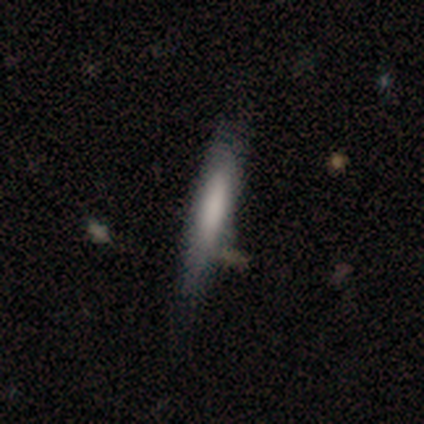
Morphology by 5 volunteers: Smooth or featured: smooth — 80% (featured or disk — 20%)
How rounded: cigar-shaped — 75% (in between — 25%)
Merging: none — 80% (merger — 20%)